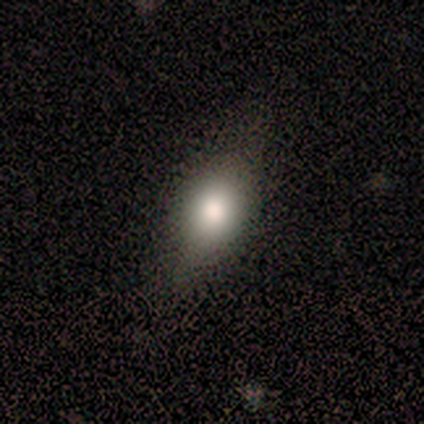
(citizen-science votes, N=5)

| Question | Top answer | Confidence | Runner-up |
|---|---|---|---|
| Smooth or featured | smooth | 80% | star or artifact (20%) |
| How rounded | round | 50% | tied: in between (50%) |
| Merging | none | 75% | minor disturbance (25%) |